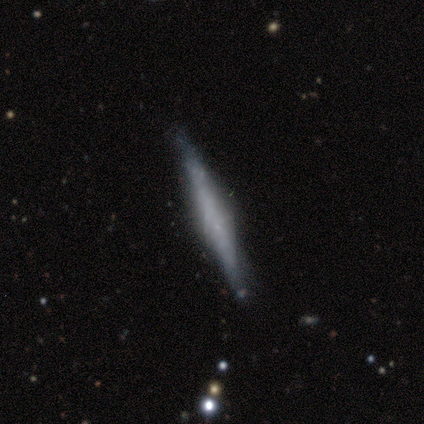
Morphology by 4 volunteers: Volunteers were most divided on "smooth or featured" (2-way tie): smooth: 50%, featured or disk: 50%, star or artifact: 0%; "how rounded" (2-way tie): in between: 50%, cigar-shaped: 50%, round: 0%. More confident: merging — none (75%).